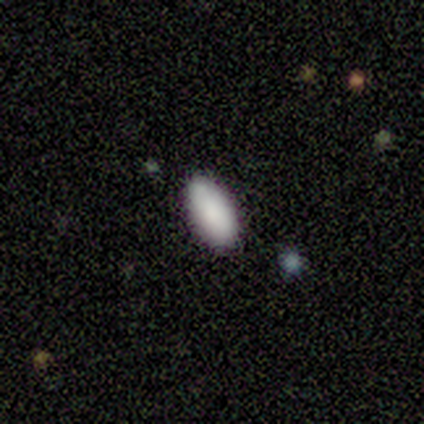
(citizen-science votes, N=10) This appears to be a smooth galaxy with no disk features (90%) that is in between round and cigar-shaped (100%). Merging: none (78%).